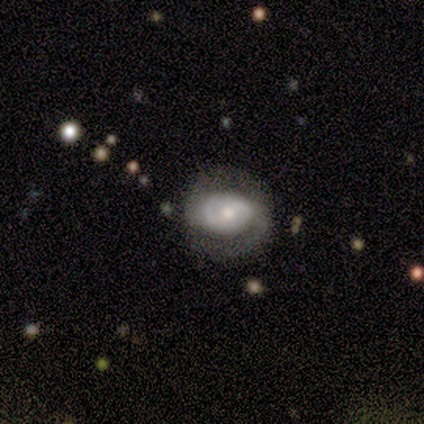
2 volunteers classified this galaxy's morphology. Smooth or featured: featured or disk — 100%
Edge-on disk: no — 100%
Bar: weak — 100%
Spiral arms: yes — 100%
Spiral winding: medium — 50% (tied with loose — 50%)
Spiral arm count: 2 — 100%
Bulge size: moderate — 50% (tied with small — 50%)
Merging: none — 100%